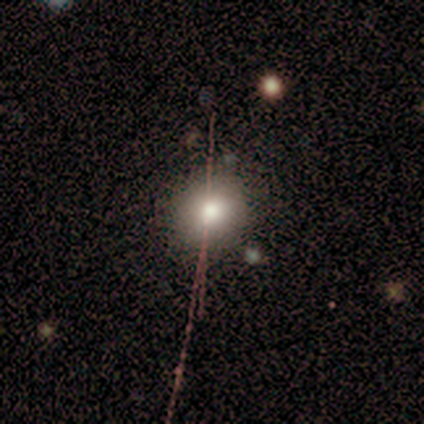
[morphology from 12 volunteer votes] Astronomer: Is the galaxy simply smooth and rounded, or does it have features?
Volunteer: smooth — 75%.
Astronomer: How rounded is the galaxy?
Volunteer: round — 89%.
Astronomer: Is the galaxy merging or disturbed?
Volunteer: none — 100%.